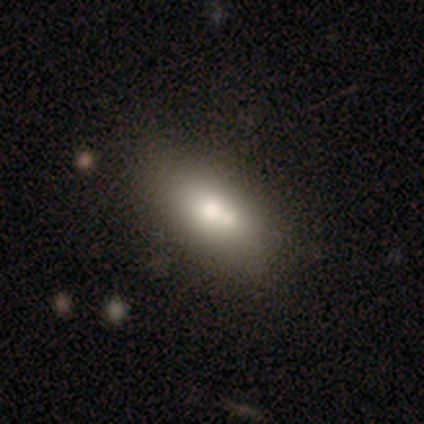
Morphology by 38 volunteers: Overall: smooth (63%; featured or disk 32%). How rounded: in between (83%). Merging: none (36%, tied with merger).